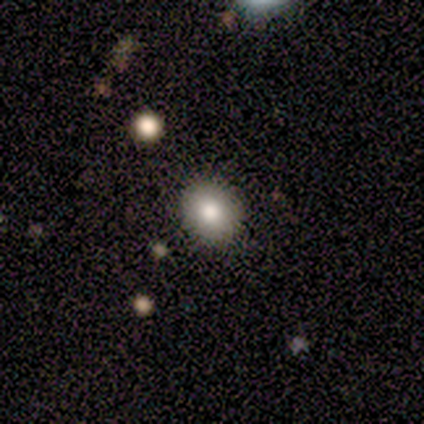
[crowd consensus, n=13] Q: Smooth or featured?
A: smooth (77%); runner-up: star or artifact (15%)
Q: How rounded?
A: round (60%); runner-up: in between (40%)
Q: Merging?
A: none (100%)